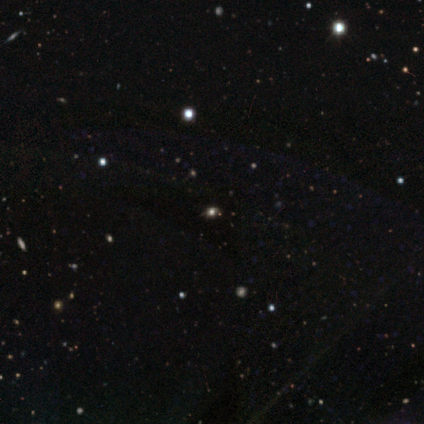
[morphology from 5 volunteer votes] star or artifact 100%, smooth 0%, featured or disk 0%.